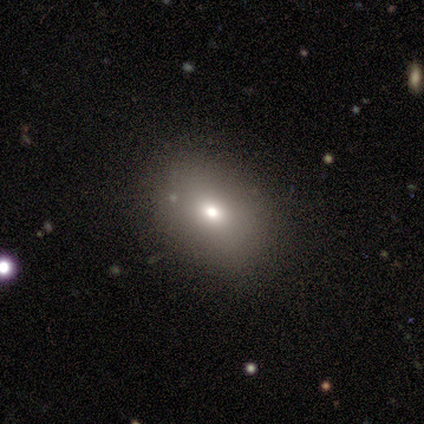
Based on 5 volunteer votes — Smooth or featured?
  - smooth: 60% *
  - featured or disk: 20%
  - star or artifact: 20%
How rounded?
  - in between: 100% *
  - round: 0%
  - cigar-shaped: 0%
Merging?
  - none: 100% *
  - minor disturbance: 0%
  - major disturbance: 0%
  - merger: 0%